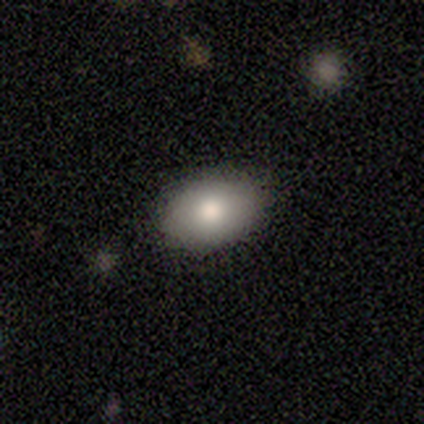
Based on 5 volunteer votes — Volunteers were most divided on "merging": none: 80%, minor disturbance: 20%, major disturbance: 0%, merger: 0%. More confident: smooth or featured — smooth (100%); how rounded — in between (100%).